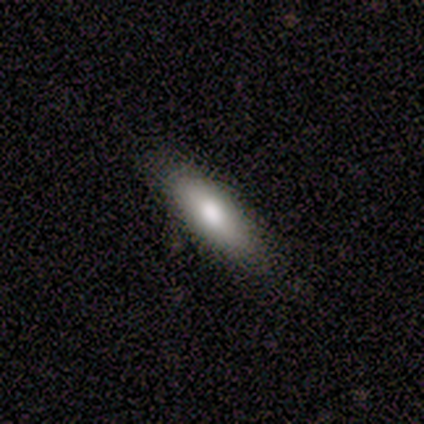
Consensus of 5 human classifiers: Q: Smooth or featured?
A: smooth (60%); runner-up: featured or disk (20%)
Q: How rounded?
A: in between (100%)
Q: Merging?
A: none (100%)